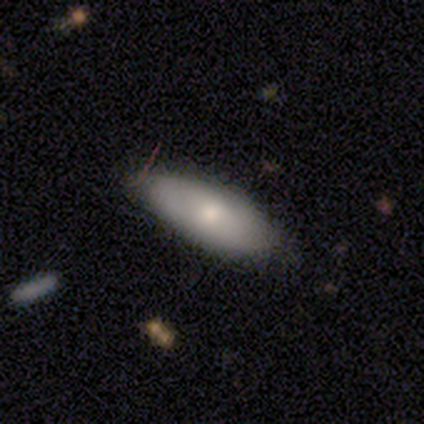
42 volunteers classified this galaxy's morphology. Smooth or featured? 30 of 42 (71%) said smooth. How rounded? 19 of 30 (63%) said in between. Merging? 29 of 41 (71%) said none.